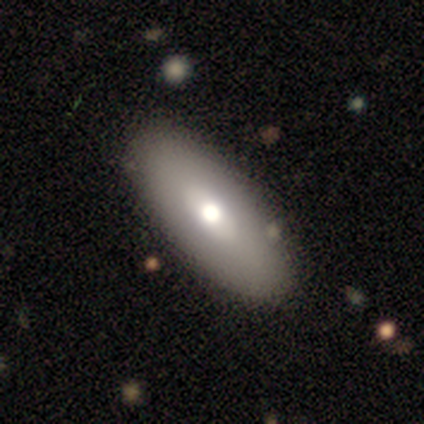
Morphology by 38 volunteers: smooth 82%, featured or disk 16%, star or artifact 3%. Down the decision tree: how rounded — in between (77%); merging — none (81%).